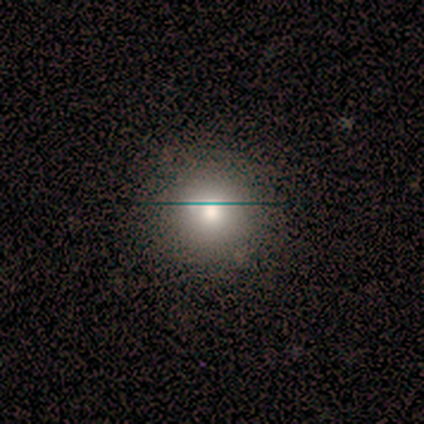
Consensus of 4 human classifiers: Smooth or featured? smooth (75%)
How rounded? round (67%)
Merging? none (50%)